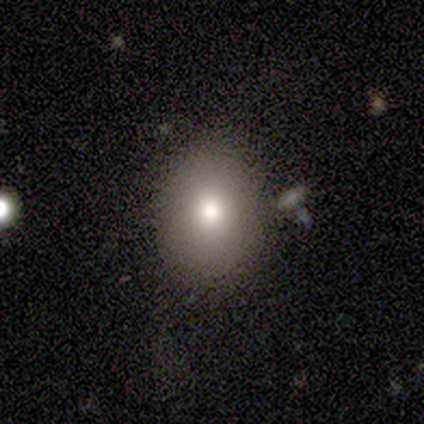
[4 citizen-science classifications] Smooth or featured: smooth — 100%
How rounded: in between — 75% (round — 25%)
Merging: none — 75% (minor disturbance — 25%)